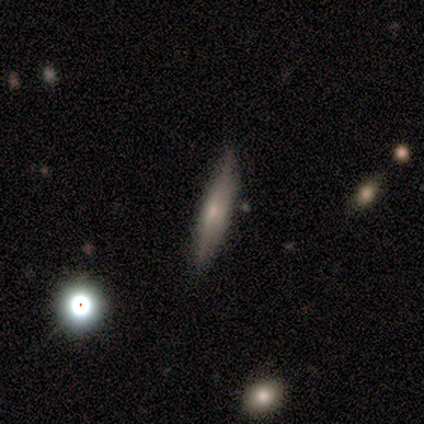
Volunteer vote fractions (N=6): smooth_or_featured: smooth (p=0.67) [alt: featured or disk p=0.33]
how_rounded: cigar-shaped (p=1.00)
merging: none (p=1.00)